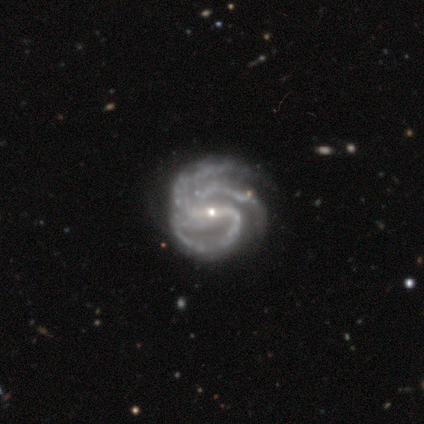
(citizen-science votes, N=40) Smooth or featured?
  - featured or disk: 100% *
  - smooth: 0%
  - star or artifact: 0%
Edge-on disk?
  - no: 100% *
  - yes: 0%
Bar?
  - strong: 68% *
  - weak: 20%
  - no: 12%
Spiral arms?
  - yes: 100% *
  - no: 0%
Spiral winding?
  - medium: 62% *
  - tight: 32%
  - loose: 5%
Spiral arm count?
  - 3: 60% *
  - 2: 20%
  - 4: 12%
  - can't tell: 5%
  - more than 4: 2%
  - 1: 0%
Bulge size?
  - small: 88% *
  - moderate: 12%
  - dominant: 0%
  - large: 0%
  - none: 0%
Merging?
  - none: 40% *
  - minor disturbance: 25%
  - major disturbance: 8%
  - merger: 0%